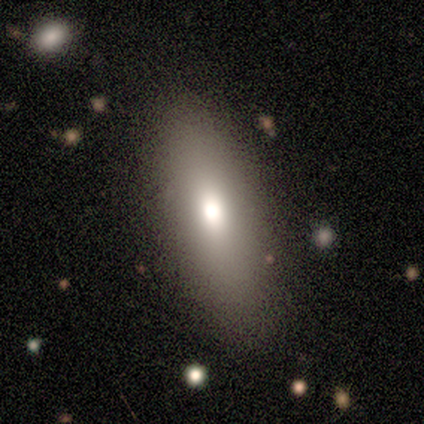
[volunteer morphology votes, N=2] Smooth or featured? 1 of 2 (50%, tied with featured or disk) said smooth. How rounded? 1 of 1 (100%) said in between. Merging? 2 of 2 (100%) said none.